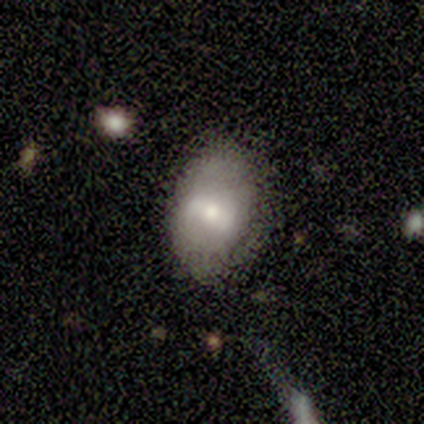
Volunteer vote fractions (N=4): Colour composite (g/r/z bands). It shows a smooth galaxy with no disk features (50%, tied with featured or disk) that is in between round and cigar-shaped (100%). Merging: none (100%).